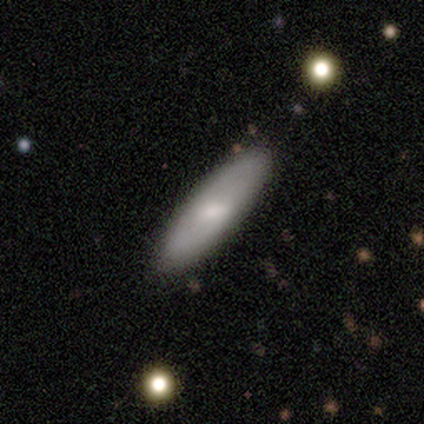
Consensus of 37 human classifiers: A smooth galaxy with no disk features (70%) that is cigar-shaped (58%).

Vote fractions:
- Smooth or featured? smooth: 70% / featured or disk: 24% / star or artifact: 5%
- How rounded? cigar-shaped: 58% / in between: 42% / round: 0%
- Merging? none: 86% / minor disturbance: 6% / merger: 6% / major disturbance: 3%